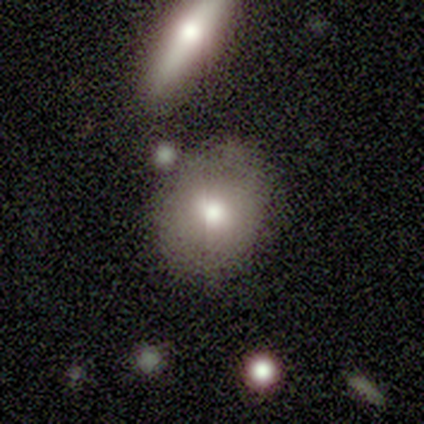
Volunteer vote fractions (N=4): Smooth or featured: smooth — 100%
How rounded: round — 100%
Merging: none — 75% (minor disturbance — 25%)